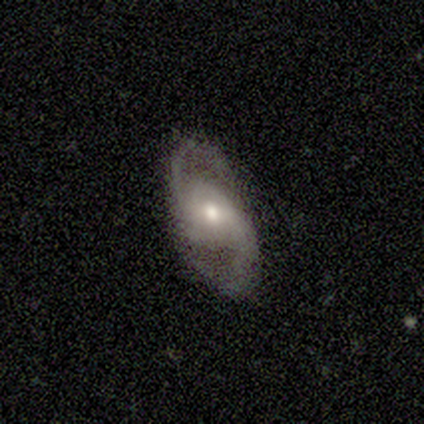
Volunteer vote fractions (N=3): This appears to be a featured or disk galaxy (100%) with a strong bar (33%, tied with weak and no), 2 (100%) medium (67%) spiral arms (100%) and a moderate central bulge (67%). Merging: none (67%).